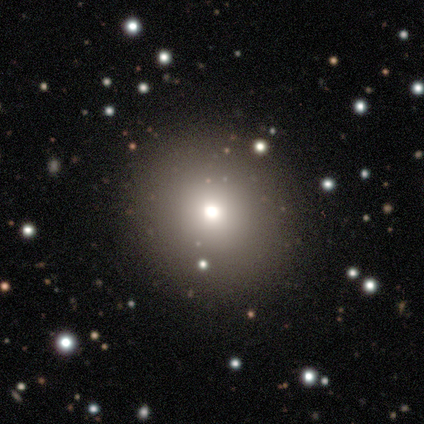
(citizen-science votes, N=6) A smooth galaxy with no disk features (67%) that is round (100%).

Vote fractions:
- Smooth or featured? smooth: 67% / featured or disk: 17% / star or artifact: 17%
- How rounded? round: 100% / in between: 0% / cigar-shaped: 0%
- Merging? none: 80% / minor disturbance: 20% / major disturbance: 0% / merger: 0%